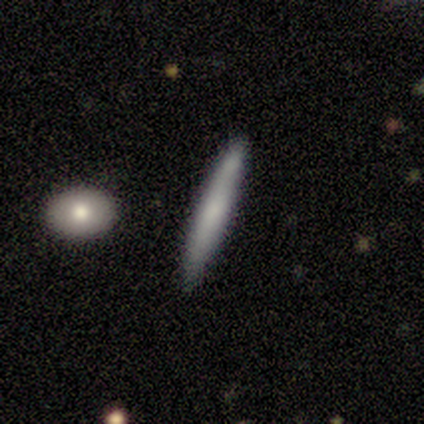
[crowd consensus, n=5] Q: Smooth or featured?
A: smooth (60%); runner-up: featured or disk (40%)
Q: How rounded?
A: cigar-shaped (100%)
Q: Merging?
A: none (100%)